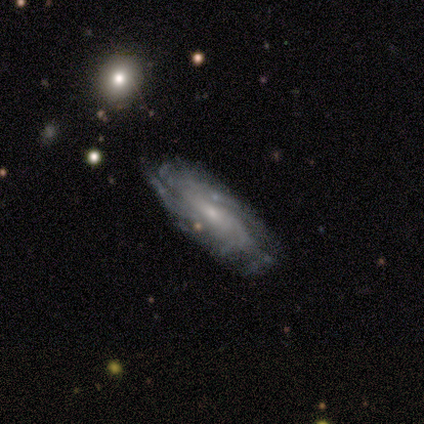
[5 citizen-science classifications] Morphology: type=featured or disk (100%); edge-on=no (100%); bar=no (80%); spiral arms=yes (80%); winding=tight (75%); arm count=2 (25%, tied with 3, more than 4 and can't tell); bulge=small (80%); merging=none (80%).